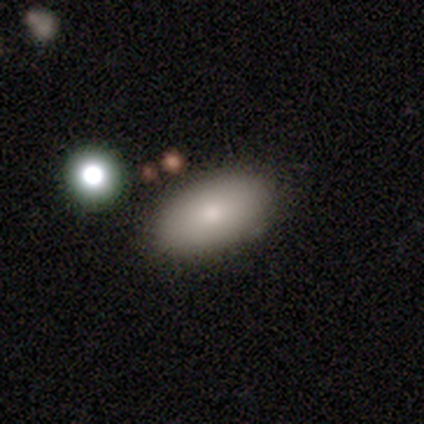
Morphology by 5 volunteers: This appears to be a smooth galaxy with no disk features (60%) that is in between round and cigar-shaped (67%). Merging: none (60%).